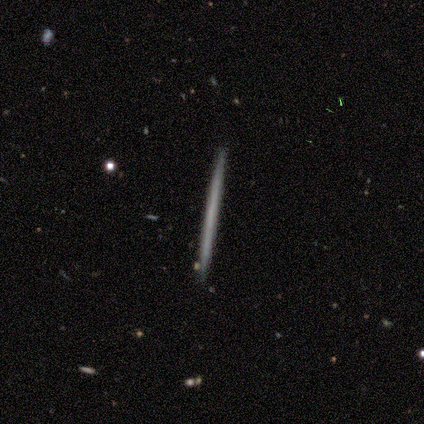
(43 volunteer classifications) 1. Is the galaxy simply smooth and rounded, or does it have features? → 51% featured or disk, 42% smooth, 7% star or artifact.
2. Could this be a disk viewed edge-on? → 95% yes, 5% no.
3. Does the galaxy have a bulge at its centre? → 95% none, 5% rounded, 0% boxy.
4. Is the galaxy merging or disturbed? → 88% none, 8% minor disturbance, 2% major disturbance, 2% merger.